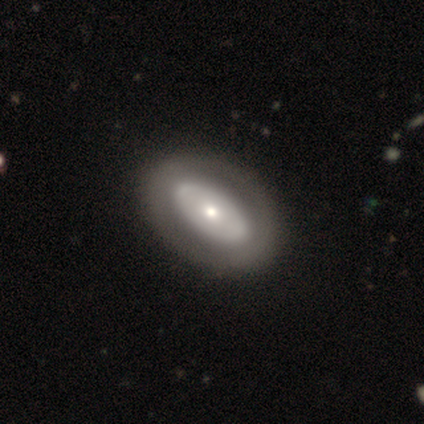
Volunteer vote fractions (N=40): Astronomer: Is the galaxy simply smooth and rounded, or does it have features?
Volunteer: featured or disk — 57% (runner-up: smooth, 40%).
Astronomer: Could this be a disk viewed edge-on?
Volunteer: no — 100%.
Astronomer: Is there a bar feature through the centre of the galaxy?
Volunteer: no — 91%.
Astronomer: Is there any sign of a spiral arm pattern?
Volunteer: no — 96%.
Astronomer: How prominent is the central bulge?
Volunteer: moderate — 39%, tied with small at 39%.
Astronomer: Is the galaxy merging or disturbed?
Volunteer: none — 54%.